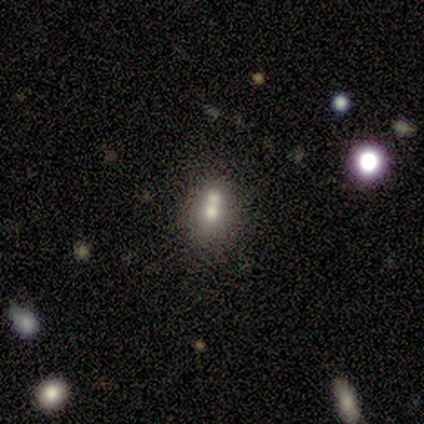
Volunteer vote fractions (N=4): Smooth or featured? 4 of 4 (100%) said smooth. How rounded? 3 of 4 (75%) said round. Merging? 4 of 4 (100%) said merger.